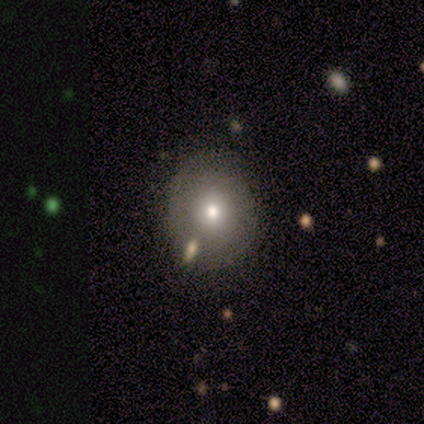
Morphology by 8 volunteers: This is possibly a featured or disk galaxy (50%). It is clearly not viewed edge-on (100%). Bar: clearly no (100%). Spiral arm pattern: likely yes (75%). Spiral arm count: likely can't tell (67%). Spiral winding: clearly tight (100%). Central bulge: possibly moderate (50%). Merging: possibly none (57%).